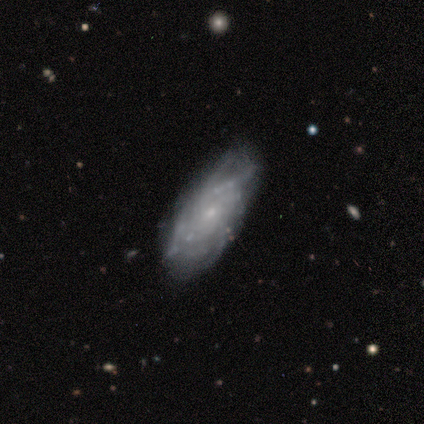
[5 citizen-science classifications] Smooth or featured? 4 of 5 (80%) said featured or disk. Edge-on disk? 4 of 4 (100%) said no. Bar? 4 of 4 (100%) said no. Spiral arms? 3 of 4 (75%) said yes. Spiral winding? 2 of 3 (67%) said tight. Spiral arm count? 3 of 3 (100%) said can't tell. Bulge size? 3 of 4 (75%) said small. Merging? 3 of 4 (75%) said none.